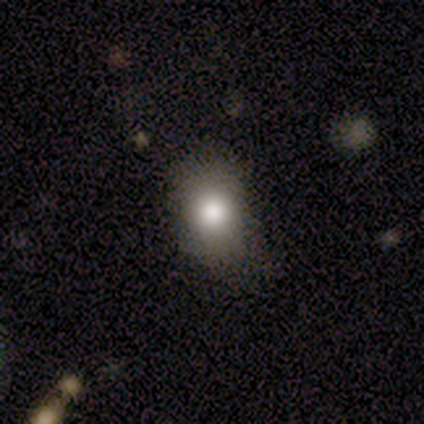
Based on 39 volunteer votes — Smooth or featured?
  - smooth: 59% *
  - featured or disk: 21%
  - star or artifact: 21%
How rounded?
  - round: 52% *
  - in between: 48%
  - cigar-shaped: 0%
Merging?
  - none: 68% *
  - minor disturbance: 23%
  - major disturbance: 10%
  - merger: 0%